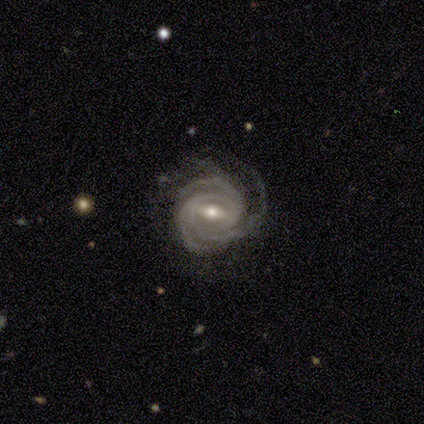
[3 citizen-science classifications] Morphology: type=featured or disk (67%); edge-on=no (100%); bar=strong (50%, tied with weak); spiral arms=yes (100%); winding=tight (100%); arm count=3 (100%); bulge=moderate (100%); merging=none (100%).